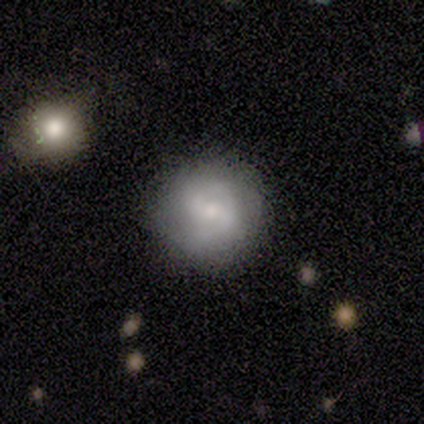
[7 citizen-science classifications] Overall: featured or disk (71%). Edge-on disk: no (100%). Bar: no (60%; weak 40%). Spiral arms: yes (100%). Spiral arm count: 2 (80%). Spiral winding: medium (40%, tied with loose). Bulge size: small (60%; moderate 40%). Merging: none (57%; minor disturbance 29%).